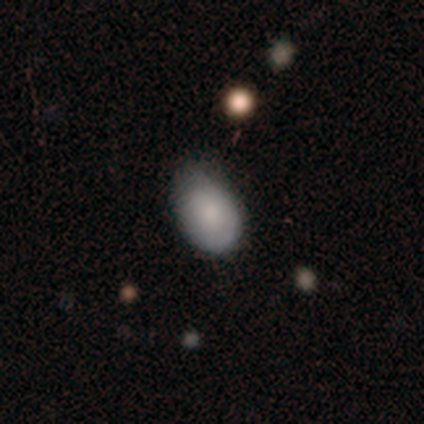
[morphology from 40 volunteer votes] type=smooth (82%); roundness=in between (73%); merging=minor disturbance (43%).